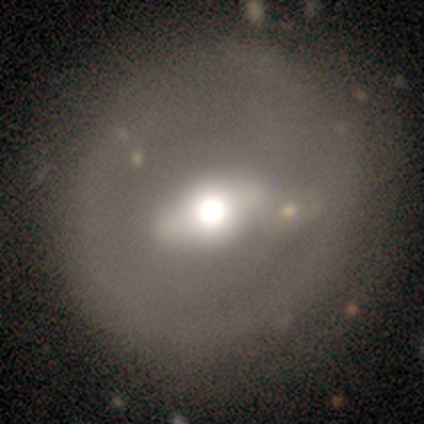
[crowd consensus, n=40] smooth-or-featured: smooth: 48% (tied) | featured or disk: 48% (tied) | star or artifact: 5%
  how-rounded: round: 79% | in between: 21% | cigar-shaped: 0%
  merging: none: 55% | major disturbance: 8% | merger: 8% | minor disturbance: 3%